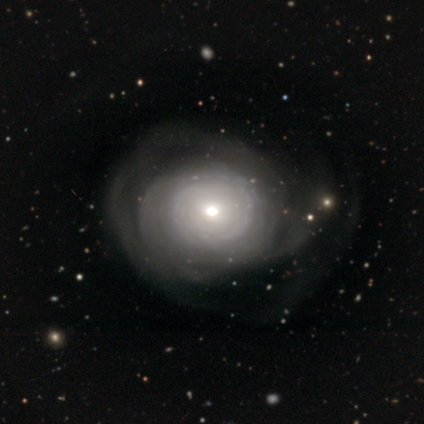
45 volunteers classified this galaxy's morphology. Smooth or featured?
  - featured or disk: 84% *
  - smooth: 11%
  - star or artifact: 4%
Edge-on disk?
  - no: 100% *
  - yes: 0%
Bar?
  - no: 97% *
  - strong: 3%
  - weak: 0%
Spiral arms?
  - yes: 66% *
  - no: 34%
Spiral winding?
  - tight: 88% *
  - medium: 12%
  - loose: 0%
Spiral arm count?
  - can't tell: 64% *
  - more than 4: 16%
  - 2: 8%
  - 3: 8%
  - 1: 4%
  - 4: 0%
Bulge size?
  - moderate: 66% *
  - small: 21%
  - large: 13%
  - dominant: 0%
  - none: 0%
Merging?
  - major disturbance: 47% *
  - none: 33%
  - minor disturbance: 21%
  - merger: 0%